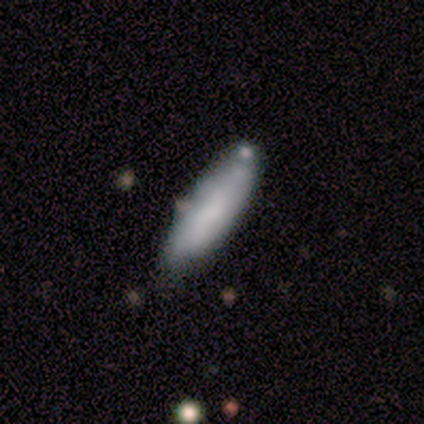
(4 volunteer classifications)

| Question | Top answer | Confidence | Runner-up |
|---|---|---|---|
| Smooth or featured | smooth | 75% | featured or disk (25%) |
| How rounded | cigar-shaped | 100% | — |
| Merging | minor disturbance | 50% | none (25%) |